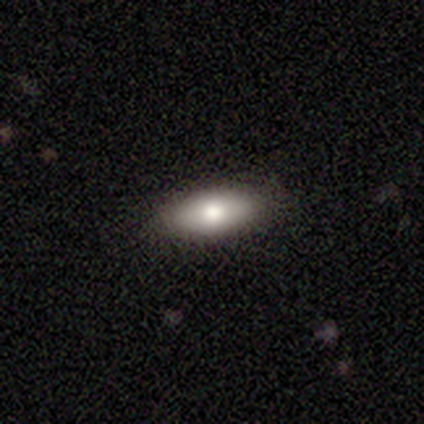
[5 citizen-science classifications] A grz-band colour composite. It shows a smooth galaxy with no disk features (60%) that is in between round and cigar-shaped (100%). Merging: none (100%).